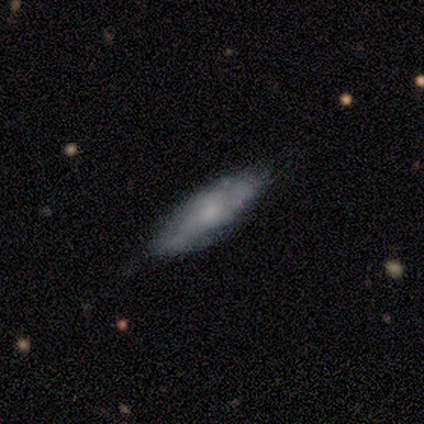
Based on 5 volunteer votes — Smooth or featured? smooth (60%)
How rounded? in between (67%)
Merging? none (80%)